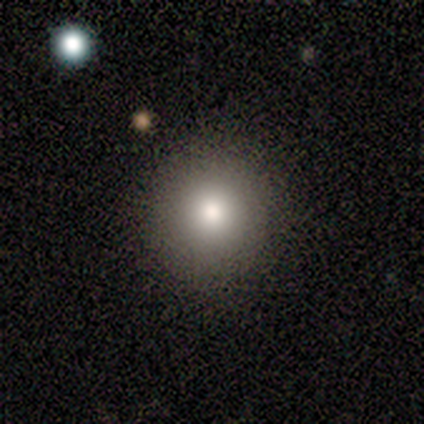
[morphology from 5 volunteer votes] smooth-or-featured: smooth: 80% | featured or disk: 20% | star or artifact: 0%
  how-rounded: round: 75% | in between: 25% | cigar-shaped: 0%
  merging: none: 100% | minor disturbance: 0% | major disturbance: 0% | merger: 0%